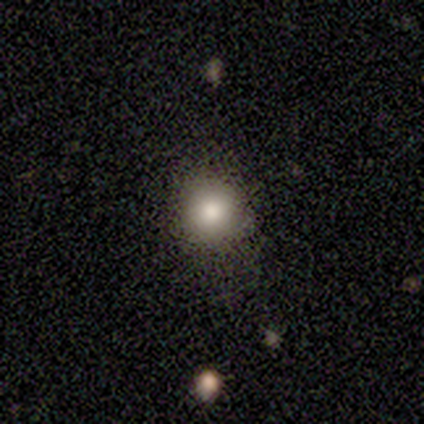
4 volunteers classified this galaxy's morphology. Smooth or featured: smooth — 75% (star or artifact — 25%)
How rounded: round — 100%
Merging: none — 67% (minor disturbance — 33%)